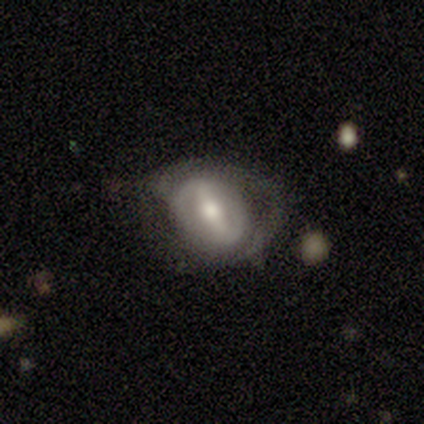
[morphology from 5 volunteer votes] featured or disk 100%, smooth 0%, star or artifact 0%. Down the decision tree: edge-on disk — no (100%); bar — strong (60%); spiral arms — yes (80%); spiral arm count — 2 (50%); spiral winding — tight (50%, tied with medium); bulge size — moderate (60%); merging — none (40%, tied with major disturbance).